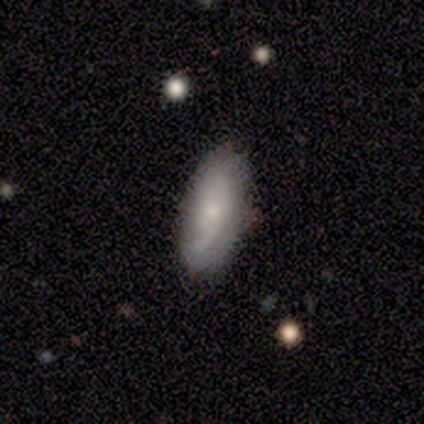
featured or disk 60%, smooth 40%, star or artifact 0%. Down the decision tree: edge-on disk — no (67%); bar — no (100%); spiral arms — yes (100%); spiral arm count — 1 (50%, tied with can't tell); spiral winding — medium (50%, tied with loose); bulge size — small (50%, tied with none); merging — none (100%).